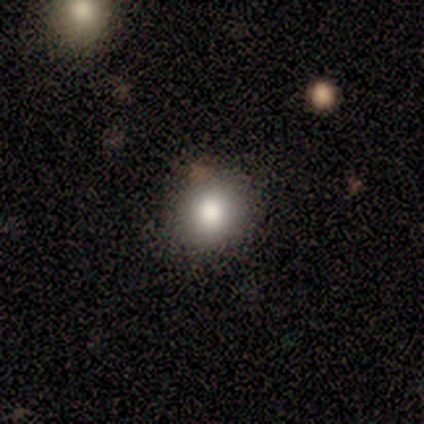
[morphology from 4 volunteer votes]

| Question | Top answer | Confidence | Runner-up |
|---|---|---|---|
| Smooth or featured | smooth | 100% | — |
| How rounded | round | 50% | tied: in between (50%) |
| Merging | none | 100% | — |